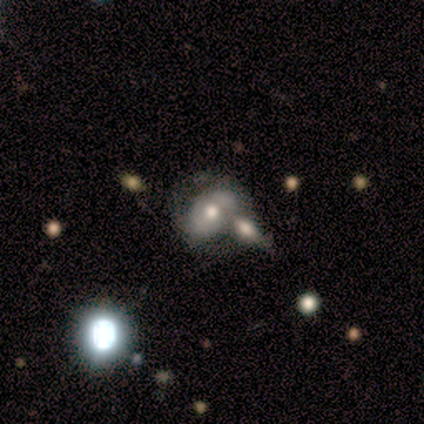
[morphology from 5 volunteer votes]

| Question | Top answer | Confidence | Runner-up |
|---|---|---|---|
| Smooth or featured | featured or disk | 80% | smooth (20%) |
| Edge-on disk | no | 100% | — |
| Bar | no | 75% | weak (25%) |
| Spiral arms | yes | 75% | no (25%) |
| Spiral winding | medium | 67% | tight (33%) |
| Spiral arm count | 2 | 100% | — |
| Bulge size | moderate | 50% | large (25%) |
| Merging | none | 60% | merger (40%) |